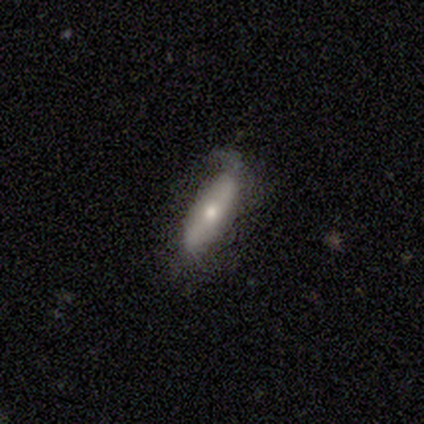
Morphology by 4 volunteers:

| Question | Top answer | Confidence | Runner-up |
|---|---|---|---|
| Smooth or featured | smooth | 50% | tied: featured or disk (50%) |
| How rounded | in between | 100% | — |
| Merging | none | 75% | minor disturbance (25%) |